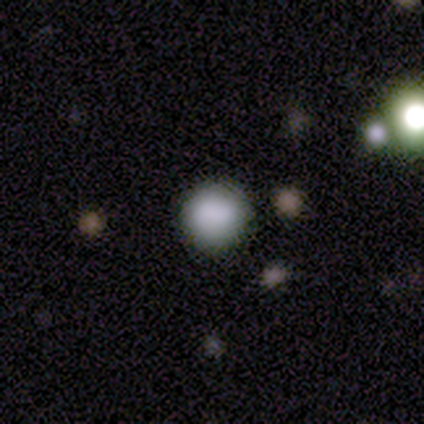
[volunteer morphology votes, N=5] Overall: smooth (80%). How rounded: round (100%). Merging: none (100%).